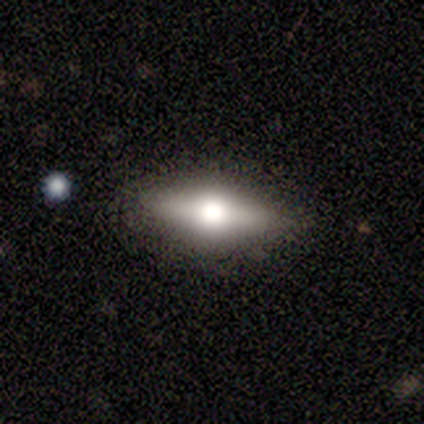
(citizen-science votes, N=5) smooth 60%, featured or disk 40%, star or artifact 0%. Down the decision tree: how rounded — cigar-shaped (100%); merging — none (100%).